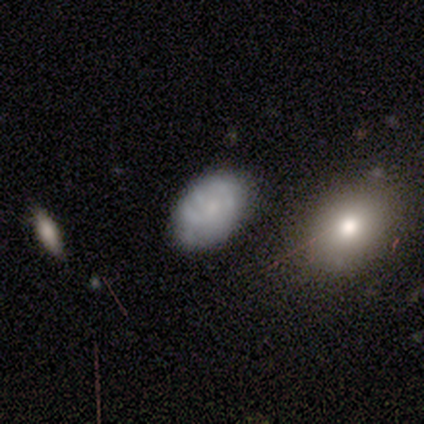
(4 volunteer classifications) smooth_or_featured: featured or disk (p=0.50) [alt: smooth p=0.25]
disk_edge_on: no (p=1.00)
bar: weak (p=0.50) [tied with: no p=0.50]
has_spiral_arms: yes (p=1.00)
spiral_winding: tight (p=0.50) [tied with: loose p=0.50]
spiral_arm_count: 1 (p=0.50) [tied with: 3 p=0.50]
bulge_size: small (p=0.50) [tied with: none p=0.50]
merging: none (p=1.00)